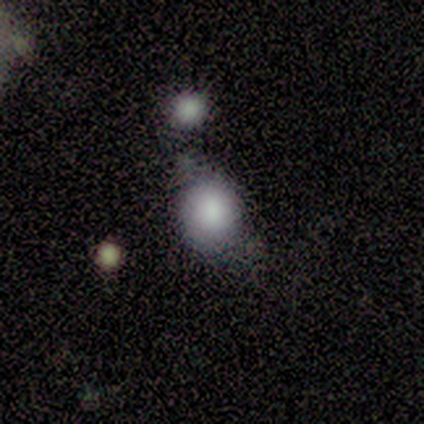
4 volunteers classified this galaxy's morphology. Volunteers were most divided on "merging" (3-way tie): none: 33%, minor disturbance: 33%, merger: 33%, major disturbance: 0%. More confident: how rounded — round (100%); smooth or featured — smooth (75%).